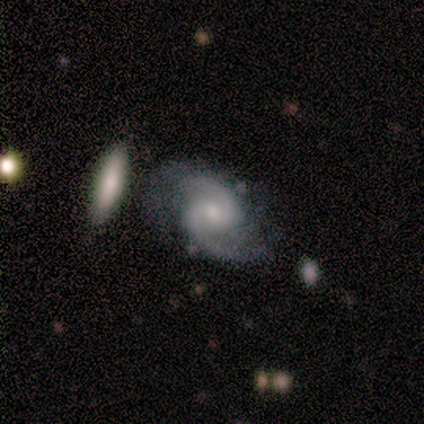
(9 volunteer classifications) Volunteers were most divided on "bulge size": small: 44%, none: 33%, moderate: 22%, dominant: 0%, large: 0%. More confident: smooth or featured — featured or disk (100%); edge-on disk — no (100%); merging — none (100%); spiral arms — yes (89%); spiral arm count — 2 (88%); spiral winding — medium (75%); bar — no (67%).